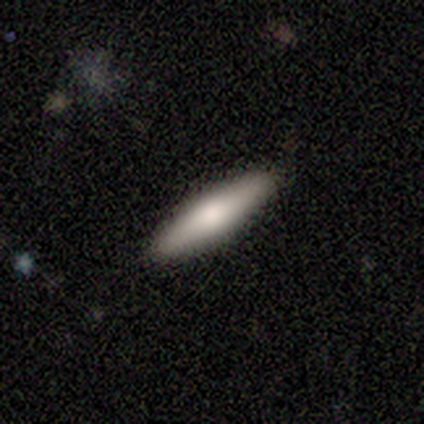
This appears to be a smooth galaxy with no disk features (80%) that is in between round and cigar-shaped (50%, tied with cigar-shaped). Merging: none (100%).